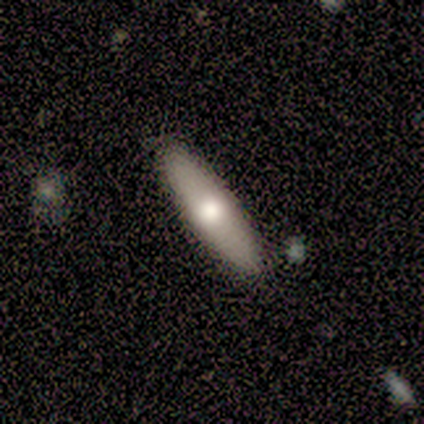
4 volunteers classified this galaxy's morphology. Smooth or featured? 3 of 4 (75%) said smooth. How rounded? 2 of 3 (67%) said in between. Merging? 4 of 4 (100%) said none.